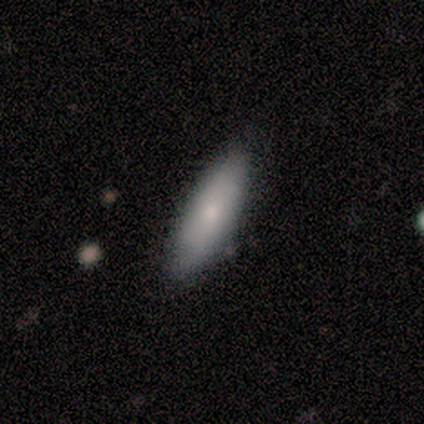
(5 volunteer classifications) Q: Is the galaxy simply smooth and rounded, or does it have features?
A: smooth — 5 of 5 (100%).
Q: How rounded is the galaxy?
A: in between — 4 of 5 (80%).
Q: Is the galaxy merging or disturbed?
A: none — 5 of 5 (100%).